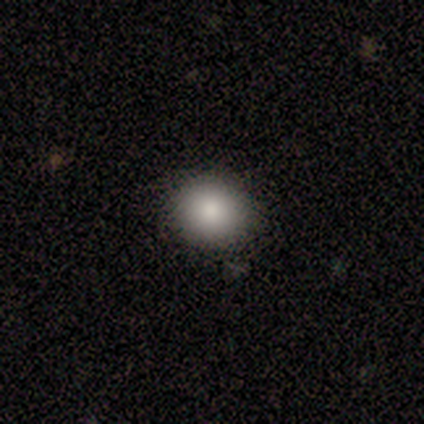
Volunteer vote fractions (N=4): smooth 100%, featured or disk 0%, star or artifact 0%. Down the decision tree: how rounded — round (100%); merging — none (100%).